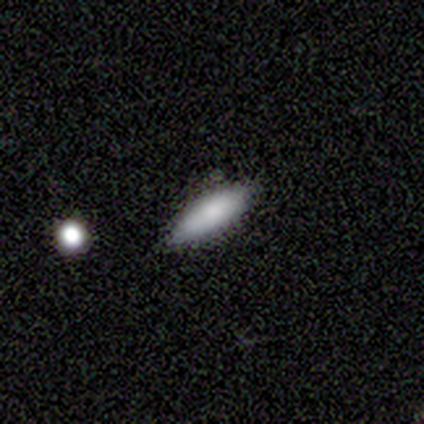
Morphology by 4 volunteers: smooth_or_featured: smooth (p=1.00)
how_rounded: cigar-shaped (p=0.75) [alt: in between p=0.25]
merging: none (p=1.00)